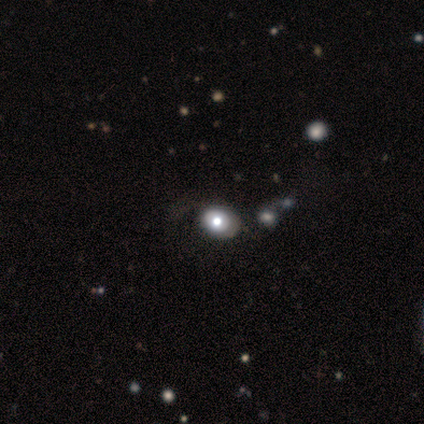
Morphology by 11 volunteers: smooth 36% (tied), featured or disk 36% (tied), star or artifact 27%. Down the decision tree: how rounded — in between (100%); merging — none (75%).